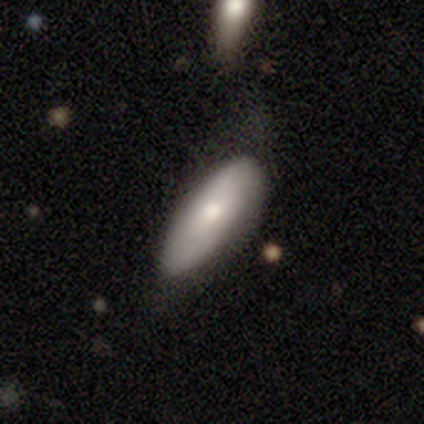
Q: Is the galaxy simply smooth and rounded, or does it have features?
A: smooth — 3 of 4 (75%).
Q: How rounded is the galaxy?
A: in between — 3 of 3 (100%).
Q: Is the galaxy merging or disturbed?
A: none — 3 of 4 (75%).